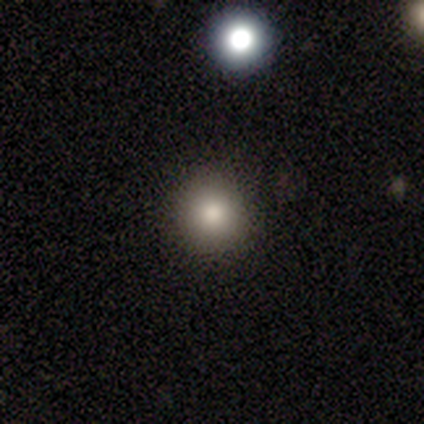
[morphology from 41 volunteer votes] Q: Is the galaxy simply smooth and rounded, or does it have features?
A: smooth — 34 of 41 (83%).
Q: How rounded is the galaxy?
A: round — 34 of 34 (100%).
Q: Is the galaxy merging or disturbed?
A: none — 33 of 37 (89%).